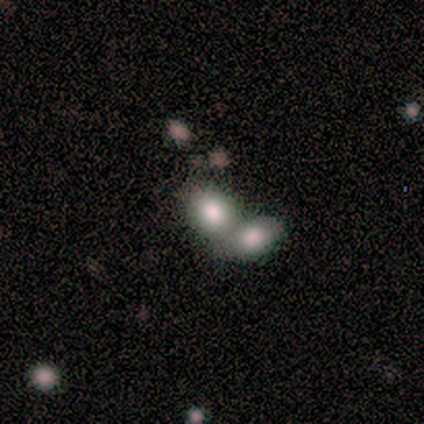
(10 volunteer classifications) smooth-or-featured: smooth: 100% | featured or disk: 0% | star or artifact: 0%
  how-rounded: in between: 60% | round: 40% | cigar-shaped: 0%
  merging: none: 50% (tied) | merger: 50% (tied) | minor disturbance: 0% | major disturbance: 0%